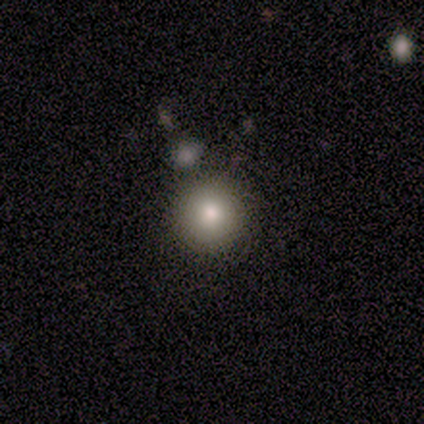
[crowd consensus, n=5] Smooth or featured? 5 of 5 (100%) said smooth. How rounded? 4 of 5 (80%) said round. Merging? 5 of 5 (100%) said none.